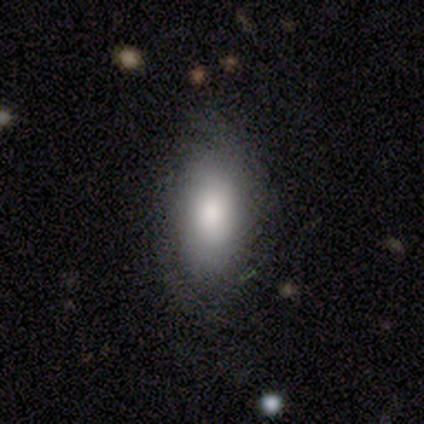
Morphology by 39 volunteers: A smooth galaxy with no disk features (72%) that is in between round and cigar-shaped (93%).

Vote fractions:
- Smooth or featured? smooth: 72% / featured or disk: 26% / star or artifact: 3%
- How rounded? in between: 93% / round: 4% / cigar-shaped: 4%
- Merging? none: 71% / minor disturbance: 21% / major disturbance: 8% / merger: 0%